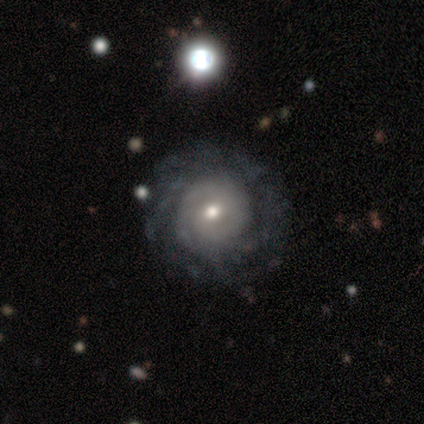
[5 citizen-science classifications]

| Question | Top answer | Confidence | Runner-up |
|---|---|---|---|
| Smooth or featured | featured or disk | 100% | — |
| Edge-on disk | no | 80% | yes (20%) |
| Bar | no | 75% | weak (25%) |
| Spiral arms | yes | 100% | — |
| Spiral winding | tight | 75% | medium (25%) |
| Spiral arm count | can't tell | 50% | 2 (25%) |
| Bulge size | moderate | 50% | tied: small (50%) |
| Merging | none | 80% | merger (20%) |